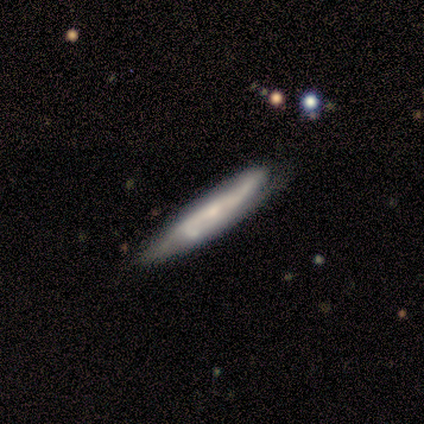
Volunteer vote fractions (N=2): Smooth or featured? 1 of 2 (50%, tied with featured or disk) said smooth. How rounded? 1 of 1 (100%) said cigar-shaped. Merging? 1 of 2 (50%, tied with minor disturbance) said none.